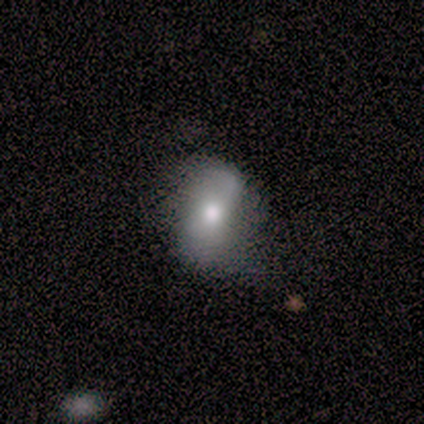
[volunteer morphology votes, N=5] Q: Smooth or featured?
A: smooth (60%); runner-up: featured or disk (40%)
Q: How rounded?
A: round (33%); tied with: in between (33%); cigar-shaped (33%)
Q: Merging?
A: none (60%); runner-up: minor disturbance (40%)